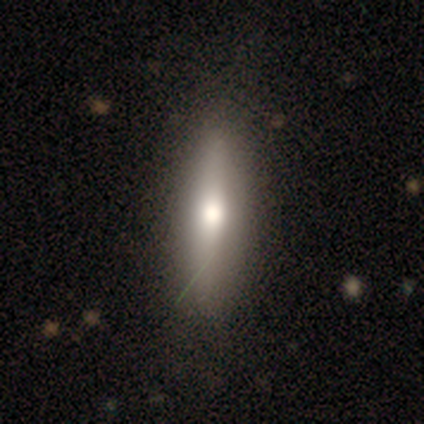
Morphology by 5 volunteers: featured or disk 60%, smooth 40%, star or artifact 0%. Down the decision tree: edge-on disk — yes (100%); edge-on bulge — rounded (100%); merging — none (60%).